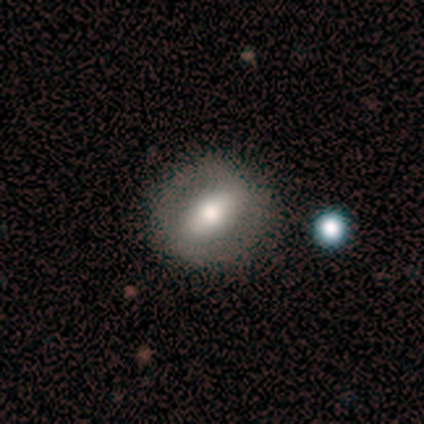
Morphology: type=smooth (60%); roundness=round (67%); merging=none (80%).